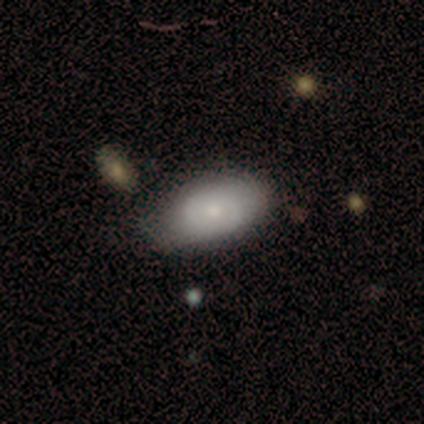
Smooth or featured? smooth (60%)
How rounded? in between (100%)
Merging? none (80%)